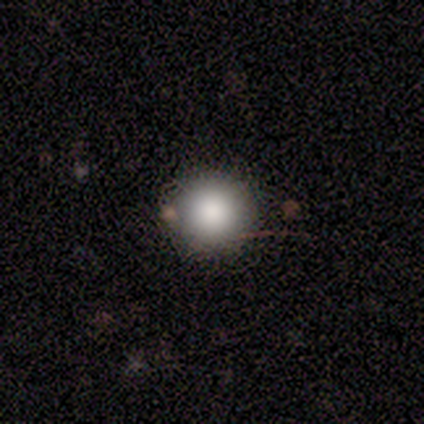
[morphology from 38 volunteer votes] Smooth or featured? smooth (89%)
How rounded? round (97%)
Merging? none (89%)